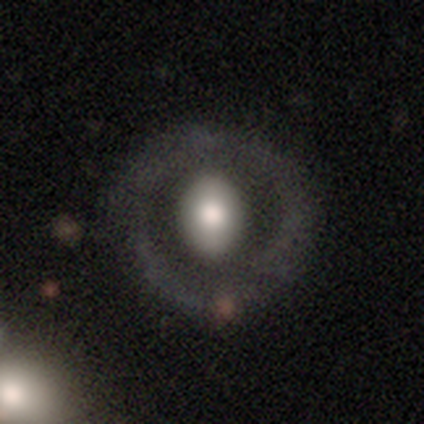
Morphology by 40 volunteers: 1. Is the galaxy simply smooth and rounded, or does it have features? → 60% featured or disk, 38% smooth, 2% star or artifact.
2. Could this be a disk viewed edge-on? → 92% no, 8% yes.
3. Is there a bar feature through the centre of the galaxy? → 59% no, 32% weak, 9% strong.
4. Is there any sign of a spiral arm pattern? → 95% no, 5% yes.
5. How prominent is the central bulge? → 45% moderate, 36% large, 9% dominant, 5% small, 5% none.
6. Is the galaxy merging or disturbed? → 77% none, 10% minor disturbance, 10% major disturbance, 3% merger.